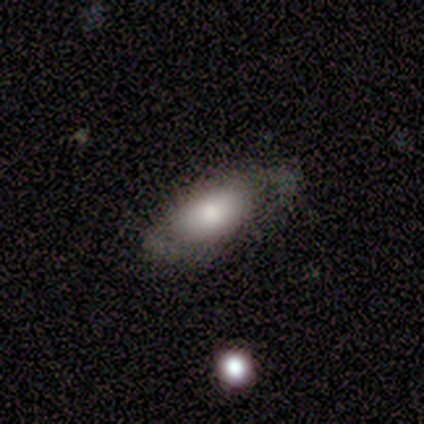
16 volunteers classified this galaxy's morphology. smooth_or_featured: smooth (p=0.81) [alt: star or artifact p=0.12]
how_rounded: in between (p=1.00)
merging: none (p=0.57) [alt: minor disturbance p=0.21]